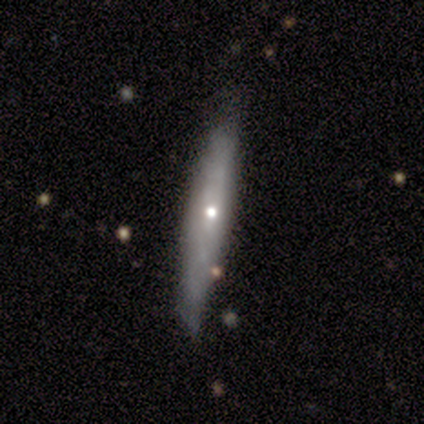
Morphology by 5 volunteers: Smooth or featured: smooth — 60% (featured or disk — 40%)
How rounded: cigar-shaped — 67% (in between — 33%)
Merging: minor disturbance — 60% (none — 40%)